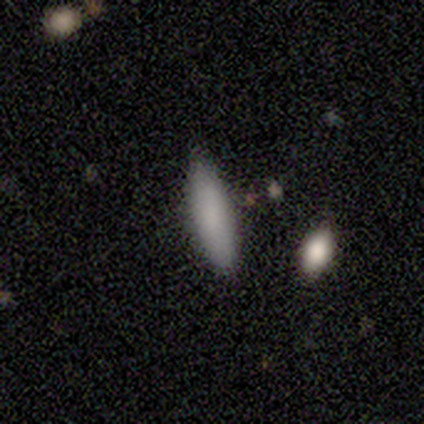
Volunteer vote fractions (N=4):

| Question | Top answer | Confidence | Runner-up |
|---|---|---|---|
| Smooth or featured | smooth | 100% | — |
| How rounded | cigar-shaped | 100% | — |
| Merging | none | 100% | — |